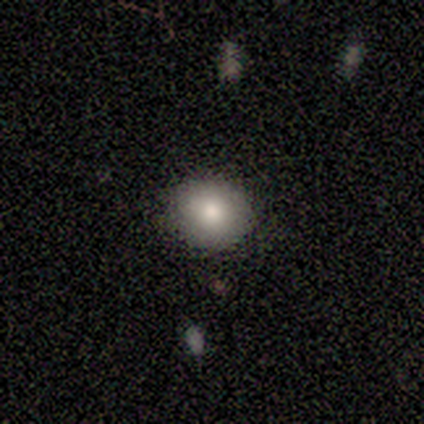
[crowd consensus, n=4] Smooth or featured? 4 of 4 (100%) said smooth. How rounded? 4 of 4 (100%) said round. Merging? 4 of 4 (100%) said none.